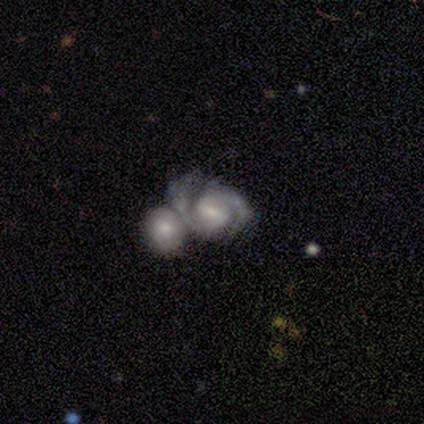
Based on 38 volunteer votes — A featured or disk galaxy (79%) with a weak bar (57%), 2 (97%) medium (59%) spiral arms (97%) and a small central bulge (60%).

Vote fractions:
- Smooth or featured? featured or disk: 79% / smooth: 11% / star or artifact: 11%
- Edge-on disk? no: 100% / yes: 0%
- Bar? weak: 57% / strong: 23% / no: 20%
- Spiral arms? yes: 97% / no: 3%
- Spiral winding? medium: 59% / tight: 31% / loose: 10%
- Spiral arm count? 2: 97% / 3: 3% / 1: 0% / 4: 0% / more than 4: 0% / can't tell: 0%
- Bulge size? small: 60% / moderate: 40% / dominant: 0% / large: 0% / none: 0%
- Merging? merger: 62% / none: 21% / minor disturbance: 9% / major disturbance: 9%